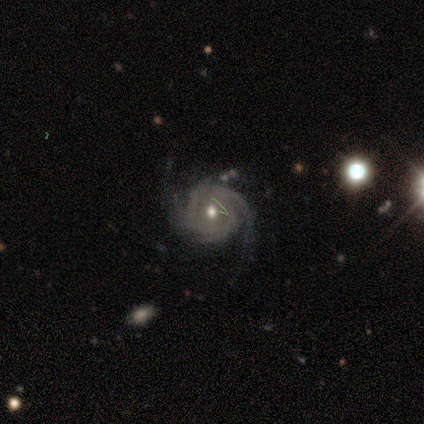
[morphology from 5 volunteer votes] Overall: featured or disk (100%). Edge-on disk: no (100%). Bar: no (100%). Spiral arms: yes (100%). Spiral arm count: 2 (40%, tied with 3). Spiral winding: tight (60%; medium 20%). Bulge size: moderate (60%; small 40%). Merging: none (80%).